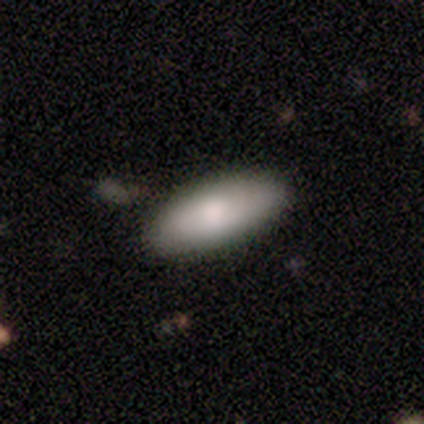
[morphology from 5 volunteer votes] Smooth or featured?
  - smooth: 100% *
  - featured or disk: 0%
  - star or artifact: 0%
How rounded?
  - in between: 60% *
  - round: 20%
  - cigar-shaped: 20%
Merging?
  - none: 80% *
  - minor disturbance: 20%
  - major disturbance: 0%
  - merger: 0%